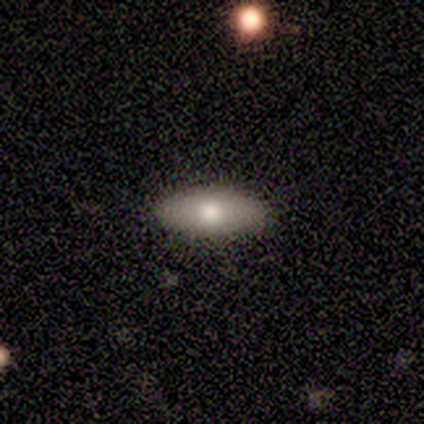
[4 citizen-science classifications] Q: Smooth or featured?
A: smooth (75%); runner-up: featured or disk (25%)
Q: How rounded?
A: in between (67%); runner-up: cigar-shaped (33%)
Q: Merging?
A: none (100%)